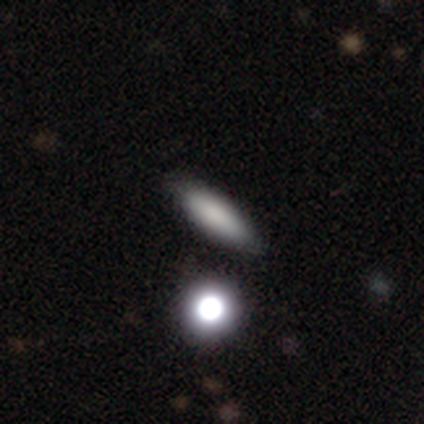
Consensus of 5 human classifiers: Morphology: type=smooth (60%); roundness=in between (67%); merging=none (100%).